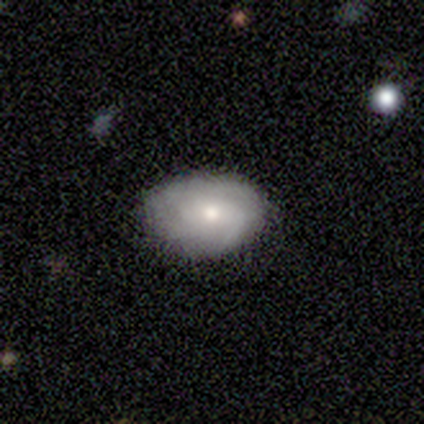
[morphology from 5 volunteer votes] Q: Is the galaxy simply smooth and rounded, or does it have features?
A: featured or disk — 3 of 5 (60%).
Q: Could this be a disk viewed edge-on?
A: no — 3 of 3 (100%).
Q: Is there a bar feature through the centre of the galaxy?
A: no — 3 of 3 (100%).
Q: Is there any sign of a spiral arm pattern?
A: yes — 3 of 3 (100%).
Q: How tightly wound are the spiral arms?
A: tight — 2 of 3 (67%).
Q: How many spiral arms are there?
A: can't tell — 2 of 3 (67%).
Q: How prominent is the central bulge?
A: moderate — 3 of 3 (100%).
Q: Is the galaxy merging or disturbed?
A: none — 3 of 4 (75%).